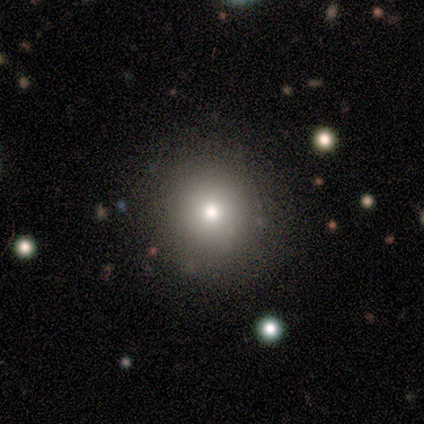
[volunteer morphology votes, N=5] Volunteers were most divided on "smooth or featured": smooth: 80%, featured or disk: 20%, star or artifact: 0%. More confident: how rounded — round (100%); merging — none (100%).